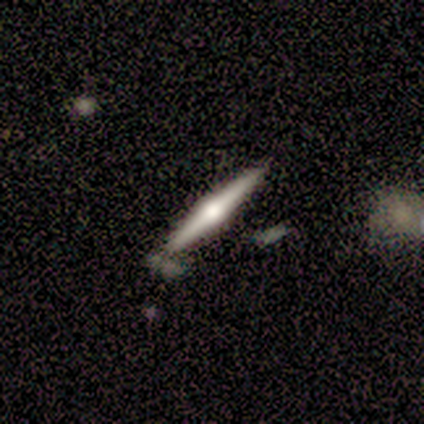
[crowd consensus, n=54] Smooth or featured? 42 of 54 (78%) said featured or disk. Edge-on disk? 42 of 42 (100%) said yes. Edge-on bulge? 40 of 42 (95%) said rounded. Merging? 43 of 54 (80%) said none.